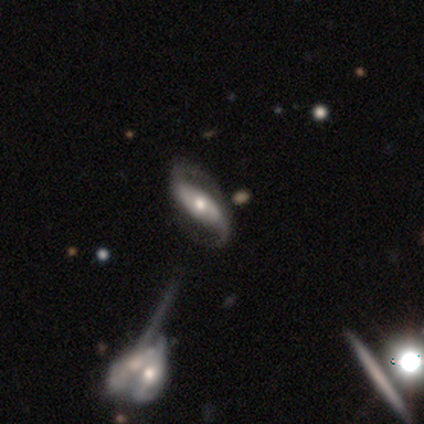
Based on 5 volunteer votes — Smooth or featured: featured or disk — 100%
Edge-on disk: no — 100%
Bar: strong — 60% (no — 40%)
Spiral arms: yes — 100%
Spiral winding: medium — 60% (loose — 40%)
Spiral arm count: 2 — 100%
Bulge size: moderate — 60% (small — 40%)
Merging: none — 100%